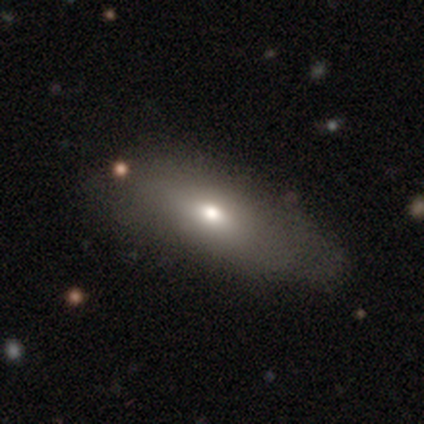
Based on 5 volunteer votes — smooth_or_featured: smooth (p=0.60) [alt: featured or disk p=0.40]
how_rounded: cigar-shaped (p=0.67) [alt: in between p=0.33]
merging: none (p=0.60) [alt: major disturbance p=0.20]